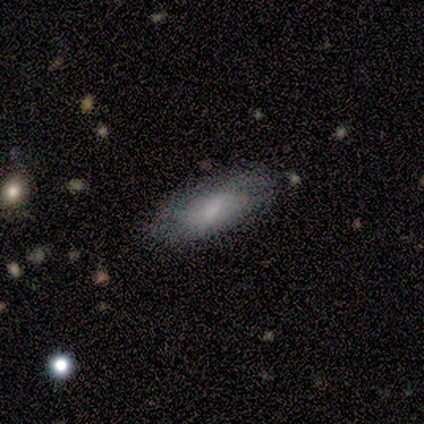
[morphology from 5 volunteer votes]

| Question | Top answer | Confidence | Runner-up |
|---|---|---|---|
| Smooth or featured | smooth | 60% | featured or disk (40%) |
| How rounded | in between | 100% | — |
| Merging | none | 60% | minor disturbance (40%) |